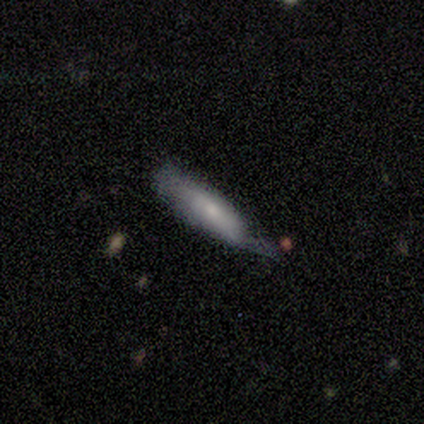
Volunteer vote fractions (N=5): smooth_or_featured: smooth (p=0.80) [alt: featured or disk p=0.20]
how_rounded: cigar-shaped (p=0.75) [alt: in between p=0.25]
merging: none (p=0.40) [tied with: major disturbance p=0.40]